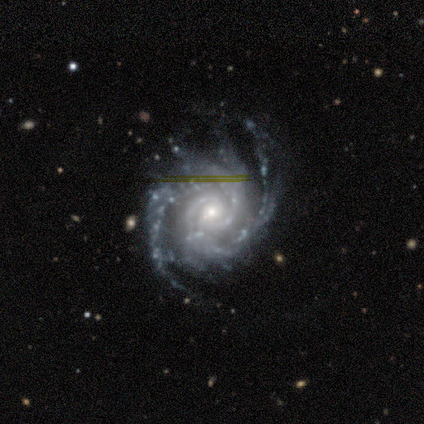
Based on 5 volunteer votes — smooth_or_featured: featured or disk (p=1.00)
disk_edge_on: no (p=1.00)
bar: weak (p=0.60) [alt: no p=0.40]
has_spiral_arms: yes (p=1.00)
spiral_winding: medium (p=0.60) [alt: tight p=0.40]
spiral_arm_count: 2 (p=0.40) [alt: 3 p=0.20]
bulge_size: small (p=0.60) [alt: large p=0.20]
merging: none (p=0.60) [alt: major disturbance p=0.40]